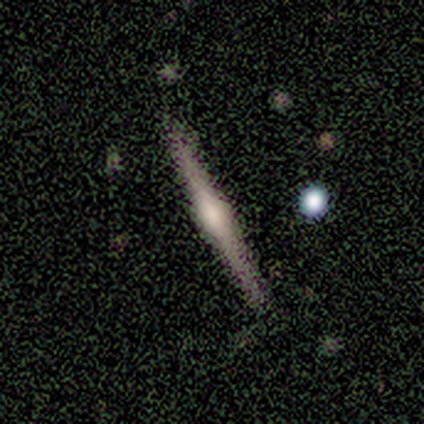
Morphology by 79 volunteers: featured or disk 89%, smooth 9%, star or artifact 3%. Down the decision tree: edge-on disk — yes (100%); edge-on bulge — rounded (80%); merging — none (88%).